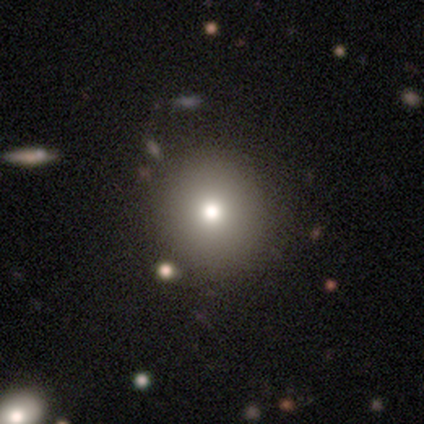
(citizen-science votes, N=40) Smooth or featured? smooth (80%)
How rounded? round (94%)
Merging? none (71%)